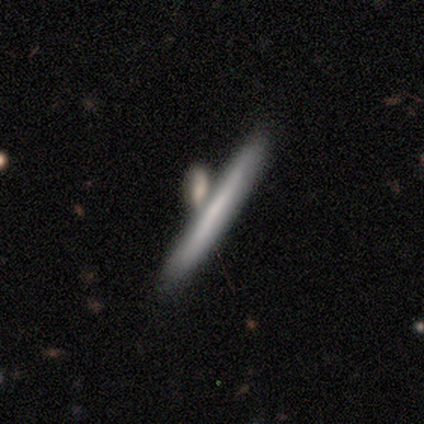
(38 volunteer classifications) smooth-or-featured: featured or disk: 53% | smooth: 47% | star or artifact: 0%
  disk-edge-on: yes: 85% | no: 15%
    edge-on-bulge: none: 88% | boxy: 6% | rounded: 6%
  merging: none: 47% | merger: 34% | minor disturbance: 11% | major disturbance: 8%